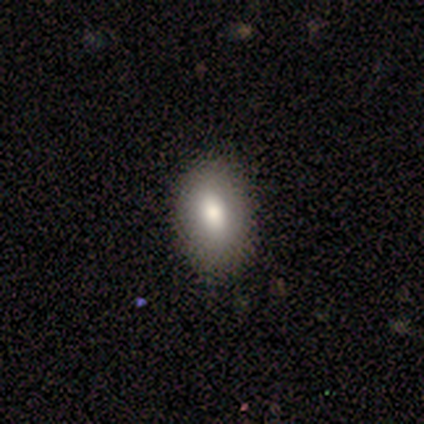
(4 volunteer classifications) Smooth or featured? smooth (100%)
How rounded? in between (75%)
Merging? none (100%)